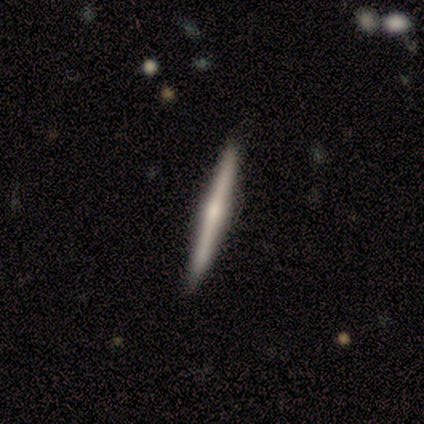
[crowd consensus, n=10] This appears to be a featured or disk galaxy (80%) viewed edge-on (100%) with a rounded central bulge (88%). Merging: none (100%).